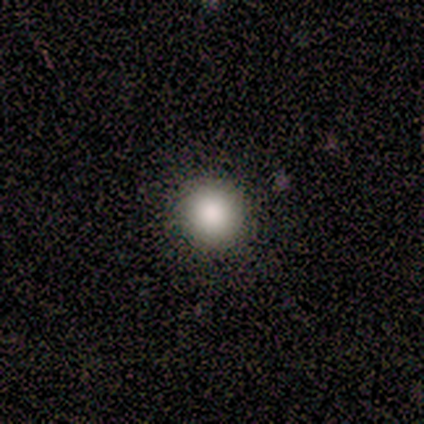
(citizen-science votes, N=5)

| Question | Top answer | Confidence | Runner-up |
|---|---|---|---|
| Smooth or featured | smooth | 100% | — |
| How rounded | round | 100% | — |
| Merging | none | 100% | — |